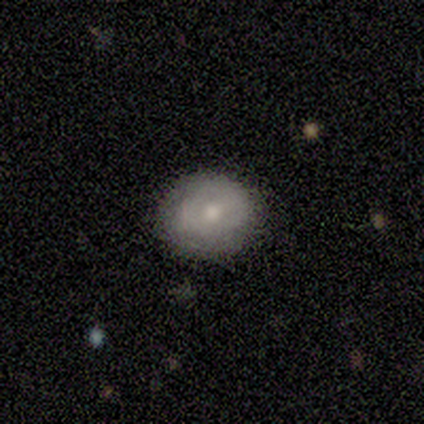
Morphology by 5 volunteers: Volunteers were most divided on "smooth or featured" (2-way tie): smooth: 40%, star or artifact: 40%, featured or disk: 20%. More confident: how rounded — round (100%); merging — none (67%).